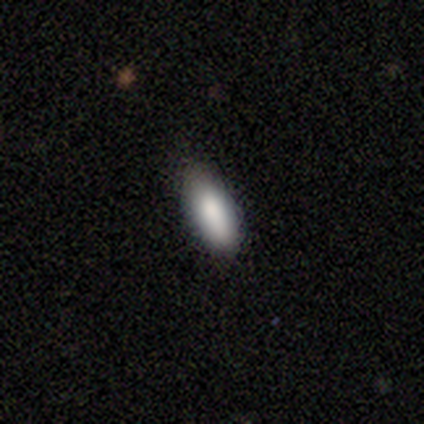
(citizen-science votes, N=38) smooth_or_featured: smooth (p=0.84) [alt: featured or disk p=0.13]
how_rounded: in between (p=0.81) [alt: cigar-shaped p=0.16]
merging: none (p=0.68) [alt: minor disturbance p=0.30]